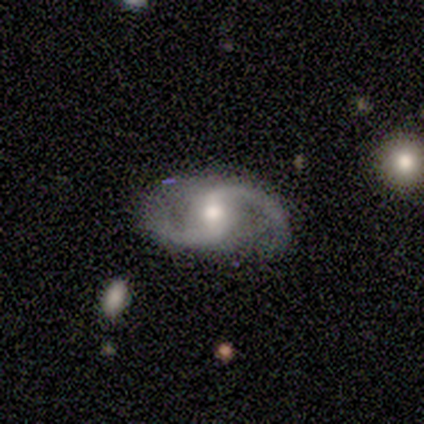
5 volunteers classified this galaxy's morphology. Q: Smooth or featured?
A: featured or disk (100%)
Q: Edge-on disk?
A: no (100%)
Q: Bar?
A: strong (40%); tied with: weak (40%)
Q: Spiral arms?
A: yes (100%)
Q: Spiral winding?
A: medium (80%); runner-up: loose (20%)
Q: Spiral arm count?
A: 2 (100%)
Q: Bulge size?
A: moderate (80%); runner-up: small (20%)
Q: Merging?
A: none (100%)